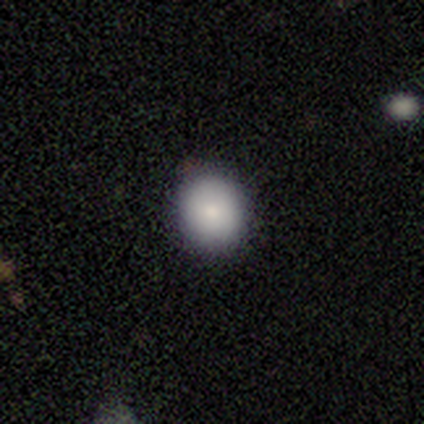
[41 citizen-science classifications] Morphology: type=smooth (90%); roundness=round (76%); merging=none (89%).